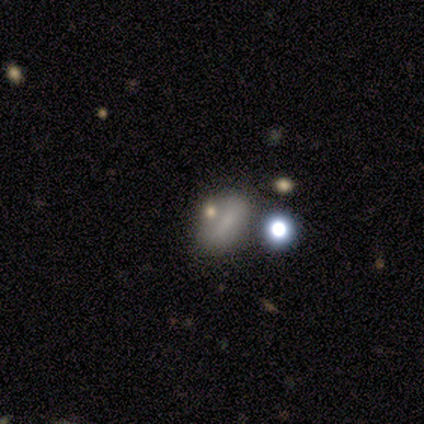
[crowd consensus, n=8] A smooth galaxy with no disk features (62%) that is in between round and cigar-shaped (80%). Merging: none (40%, tied with minor disturbance).